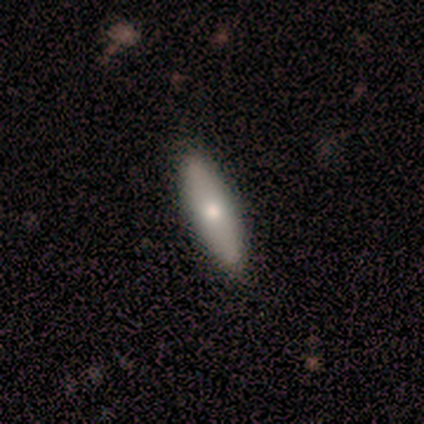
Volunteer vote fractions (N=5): A smooth galaxy with no disk features (60%) that is in between round and cigar-shaped (67%). Merging: none (100%).